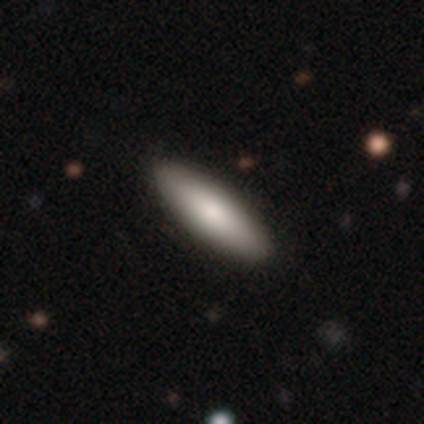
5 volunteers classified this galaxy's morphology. A smooth galaxy with no disk features (100%) that is in between round and cigar-shaped (80%).

Vote fractions:
- Smooth or featured? smooth: 100% / featured or disk: 0% / star or artifact: 0%
- How rounded? in between: 80% / cigar-shaped: 20% / round: 0%
- Merging? none: 80% / minor disturbance: 20% / major disturbance: 0% / merger: 0%